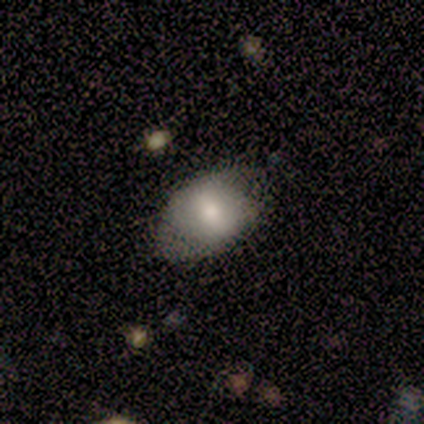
Smooth or featured? 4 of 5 (80%) said smooth. How rounded? 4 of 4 (100%) said in between. Merging? 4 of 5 (80%) said none.